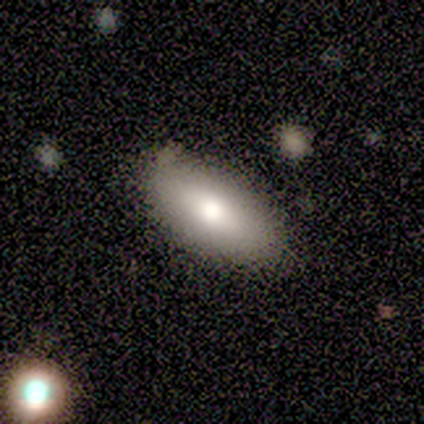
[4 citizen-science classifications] Smooth or featured? smooth (75%)
How rounded? in between (100%)
Merging? none (75%)